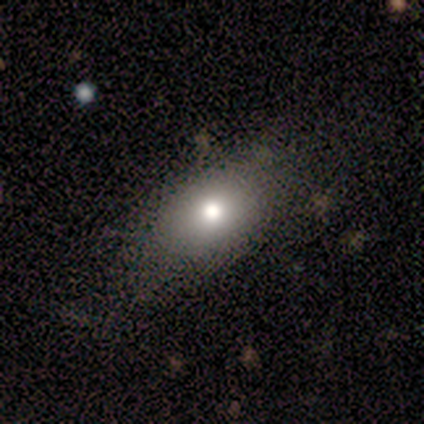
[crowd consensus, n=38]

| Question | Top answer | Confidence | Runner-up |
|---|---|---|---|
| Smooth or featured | smooth | 71% | star or artifact (16%) |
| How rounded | in between | 89% | round (11%) |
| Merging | none | 75% | minor disturbance (19%) |